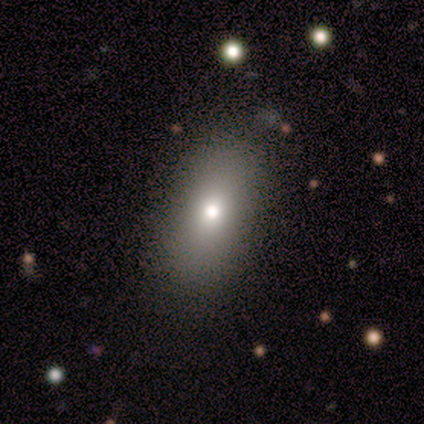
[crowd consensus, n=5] Smooth or featured? smooth (80%)
How rounded? in between (75%)
Merging? none (75%)